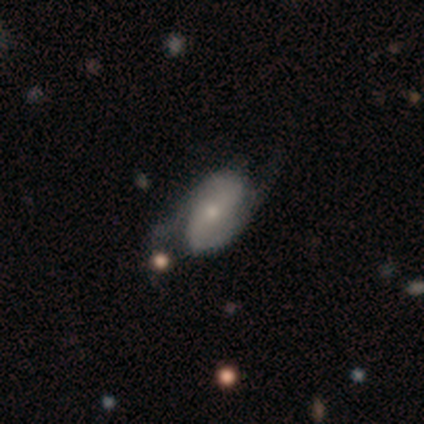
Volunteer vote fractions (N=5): Smooth or featured?
  - featured or disk: 80% *
  - smooth: 20%
  - star or artifact: 0%
Edge-on disk?
  - no: 100% *
  - yes: 0%
Bar?
  - weak: 50% * (tied)
  - no: 50% * (tied)
  - strong: 0%
Spiral arms?
  - yes: 75% *
  - no: 25%
Spiral winding?
  - loose: 67% *
  - medium: 33%
  - tight: 0%
Spiral arm count?
  - 2: 67% *
  - can't tell: 33%
  - 1: 0%
  - 3: 0%
  - 4: 0%
  - more than 4: 0%
Bulge size?
  - small: 100% *
  - dominant: 0%
  - large: 0%
  - moderate: 0%
  - none: 0%
Merging?
  - none: 80% *
  - major disturbance: 20%
  - minor disturbance: 0%
  - merger: 0%